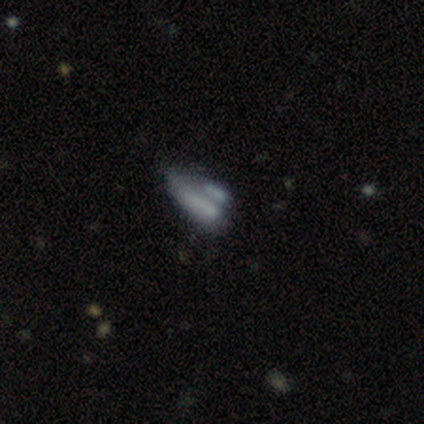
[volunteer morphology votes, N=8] Smooth or featured? 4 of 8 (50%) said smooth. How rounded? 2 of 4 (50%, tied with cigar-shaped) said in between. Merging? 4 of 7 (57%) said merger.